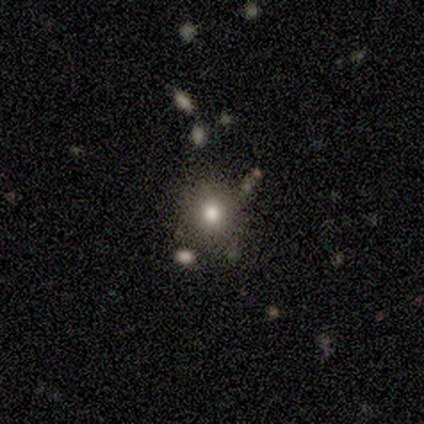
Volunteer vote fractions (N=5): This appears to be a smooth galaxy with no disk features (80%) that is round (100%). Merging: none (100%).